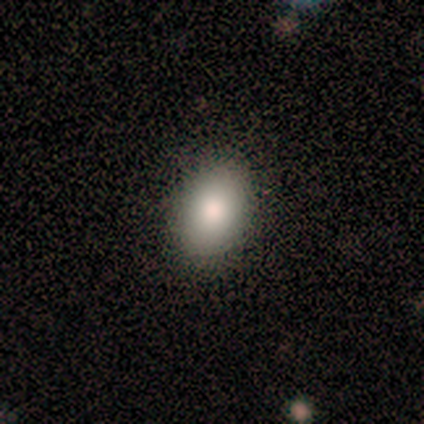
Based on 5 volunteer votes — Overall: smooth (80%). How rounded: round (50%, tied with in between). Merging: none (75%).